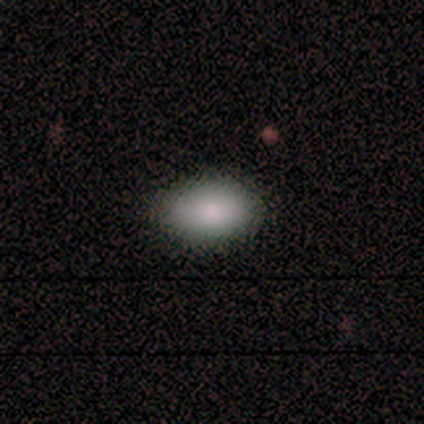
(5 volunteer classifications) This is likely a smooth galaxy (60%). How rounded: likely in between (67%). Merging: clearly none (100%).